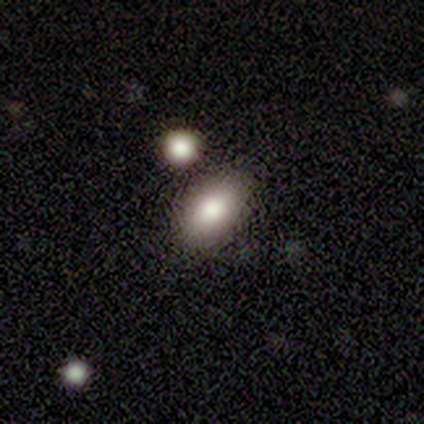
Smooth or featured? 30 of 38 (79%) said smooth. How rounded? 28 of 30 (93%) said in between. Merging? 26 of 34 (76%) said none.